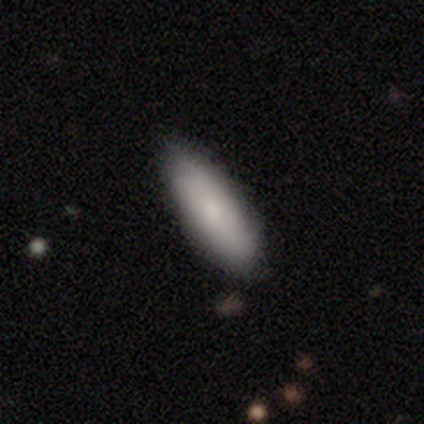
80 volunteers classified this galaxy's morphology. smooth-or-featured: smooth: 79% | featured or disk: 19% | star or artifact: 2%
  how-rounded: in between: 70% | cigar-shaped: 30% | round: 0%
  merging: none: 49% | minor disturbance: 5% | merger: 3% | major disturbance: 0%